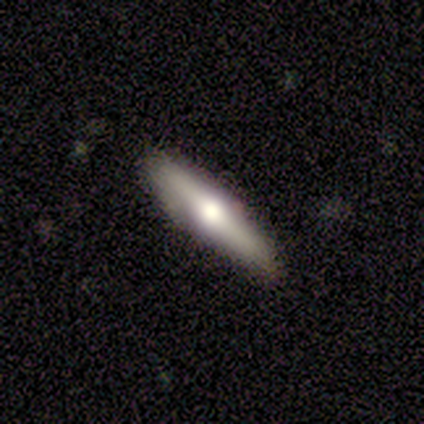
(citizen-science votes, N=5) smooth_or_featured: featured or disk (p=0.60) [alt: smooth p=0.40]
disk_edge_on: yes (p=1.00)
edge_on_bulge: rounded (p=1.00)
merging: none (p=0.80) [alt: minor disturbance p=0.20]